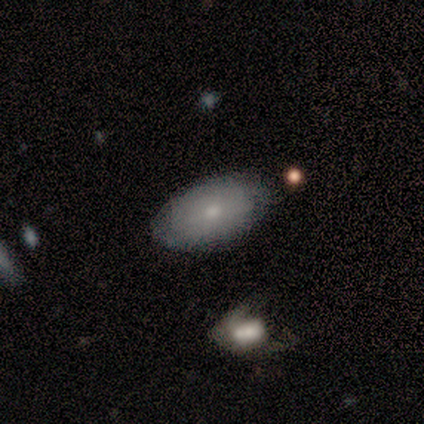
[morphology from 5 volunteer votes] Smooth or featured: smooth — 100%
How rounded: in between — 80% (round — 20%)
Merging: none — 80% (minor disturbance — 20%)